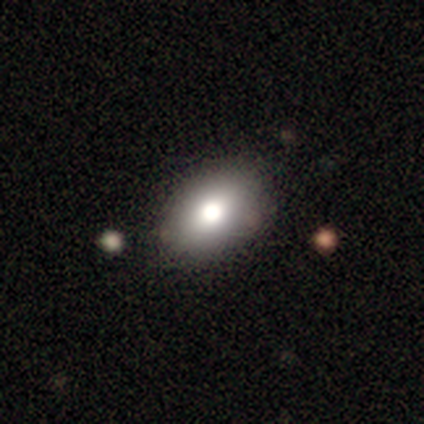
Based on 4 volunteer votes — smooth-or-featured: smooth: 50% (tied) | featured or disk: 50% (tied) | star or artifact: 0%
  how-rounded: in between: 100% | round: 0% | cigar-shaped: 0%
  merging: none: 75% | minor disturbance: 25% | major disturbance: 0% | merger: 0%